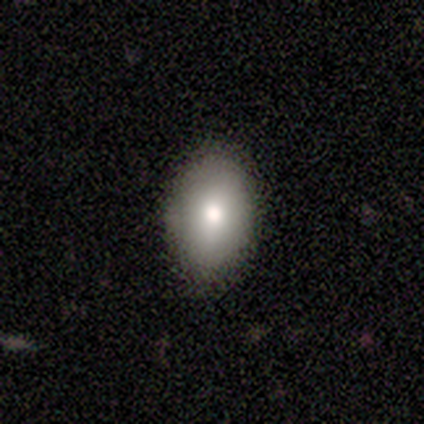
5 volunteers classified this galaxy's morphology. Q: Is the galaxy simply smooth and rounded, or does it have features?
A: smooth — 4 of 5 (80%).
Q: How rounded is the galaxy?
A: in between — 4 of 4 (100%).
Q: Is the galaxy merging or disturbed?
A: none — 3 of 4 (75%).